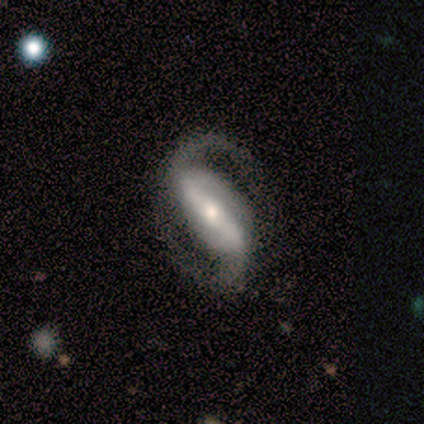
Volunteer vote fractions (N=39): Smooth or featured?
  - featured or disk: 92% *
  - smooth: 5%
  - star or artifact: 3%
Edge-on disk?
  - no: 97% *
  - yes: 3%
Bar?
  - strong: 63% *
  - weak: 26%
  - no: 11%
Spiral arms?
  - yes: 97% *
  - no: 3%
Spiral winding?
  - medium: 56% *
  - loose: 35%
  - tight: 9%
Spiral arm count?
  - 2: 97% *
  - 1: 3%
  - 3: 0%
  - 4: 0%
  - more than 4: 0%
  - can't tell: 0%
Bulge size?
  - moderate: 51% *
  - small: 40%
  - large: 9%
  - dominant: 0%
  - none: 0%
Merging?
  - none: 89% *
  - minor disturbance: 5%
  - major disturbance: 3%
  - merger: 3%